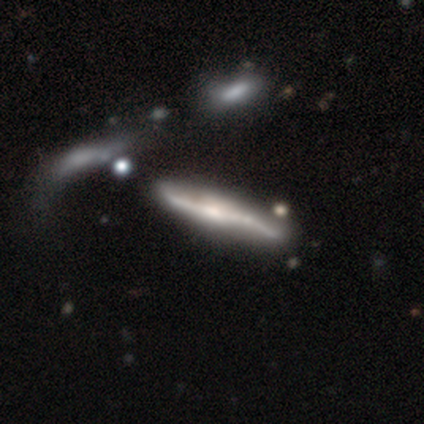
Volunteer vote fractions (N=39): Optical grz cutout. It shows a featured or disk galaxy (85%) viewed edge-on (73%) with a rounded central bulge (58%). Merging: none (35%).